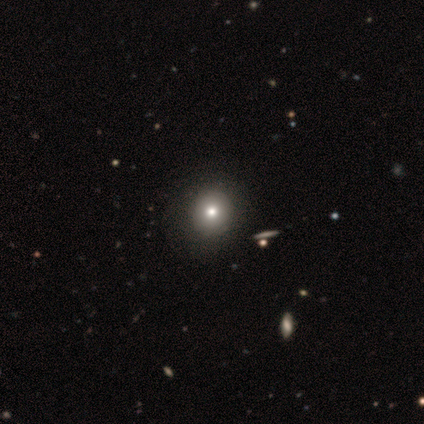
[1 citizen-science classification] A featured or disk galaxy (100%) with no bar (100%), no spiral arms (100%) and a large central bulge (100%).

Vote fractions:
- Smooth or featured? featured or disk: 100% / smooth: 0% / star or artifact: 0%
- Edge-on disk? no: 100% / yes: 0%
- Bar? no: 100% / strong: 0% / weak: 0%
- Spiral arms? no: 100% / yes: 0%
- Bulge size? large: 100% / dominant: 0% / moderate: 0% / small: 0% / none: 0%
- Merging? none: 100% / minor disturbance: 0% / major disturbance: 0% / merger: 0%